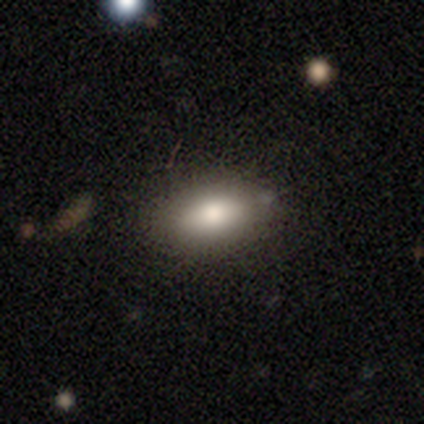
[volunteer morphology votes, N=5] Smooth or featured? smooth (80%)
How rounded? in between (100%)
Merging? none (100%)